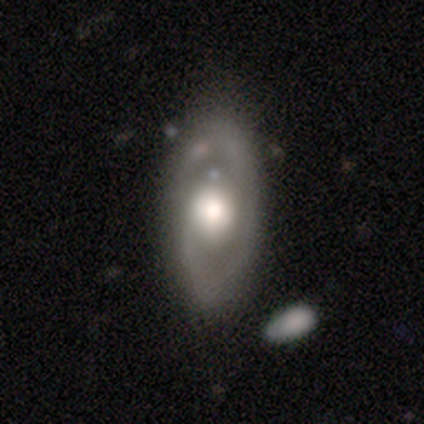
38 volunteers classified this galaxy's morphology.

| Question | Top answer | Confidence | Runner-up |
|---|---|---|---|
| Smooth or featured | featured or disk | 76% | smooth (18%) |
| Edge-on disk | no | 100% | — |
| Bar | no | 62% | weak (24%) |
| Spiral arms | yes | 76% | no (24%) |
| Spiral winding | medium | 50% | tight (36%) |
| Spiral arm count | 2 | 55% | 1 (36%) |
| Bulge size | moderate | 52% | large (38%) |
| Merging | none | 72% | minor disturbance (19%) |